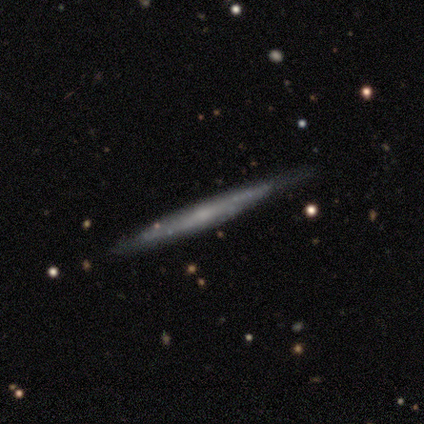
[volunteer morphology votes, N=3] Smooth or featured?
  - featured or disk: 67% *
  - smooth: 33%
  - star or artifact: 0%
Edge-on disk?
  - yes: 100% *
  - no: 0%
Edge-on bulge?
  - boxy: 50% * (tied)
  - rounded: 50% * (tied)
  - none: 0%
Merging?
  - none: 67% *
  - minor disturbance: 33%
  - major disturbance: 0%
  - merger: 0%